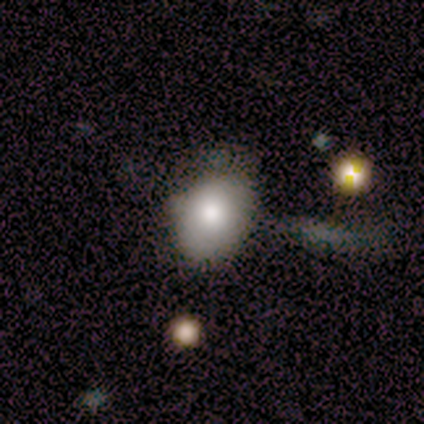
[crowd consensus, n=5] Q: Smooth or featured?
A: smooth (60%); runner-up: featured or disk (40%)
Q: How rounded?
A: in between (67%); runner-up: round (33%)
Q: Merging?
A: none (40%); tied with: minor disturbance (40%)